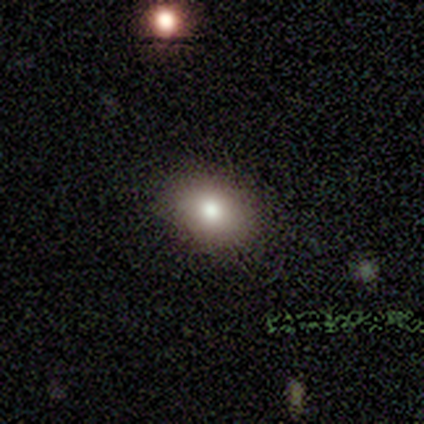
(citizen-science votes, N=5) Smooth or featured? 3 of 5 (60%) said smooth. How rounded? 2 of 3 (67%) said round. Merging? 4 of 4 (100%) said none.